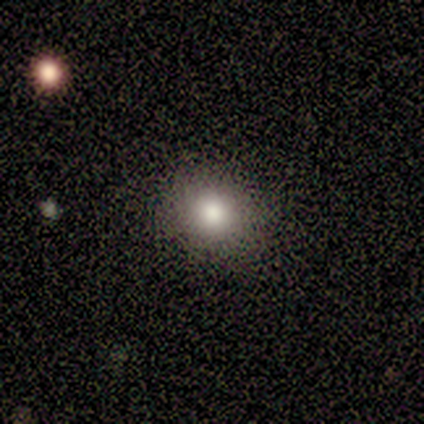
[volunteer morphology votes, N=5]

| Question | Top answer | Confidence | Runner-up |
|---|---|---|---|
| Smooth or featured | smooth | 100% | — |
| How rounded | round | 80% | in between (20%) |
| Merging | none | 100% | — |